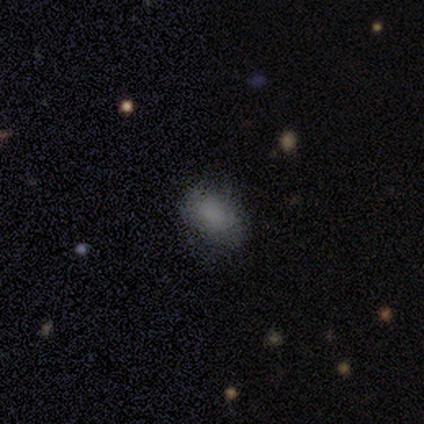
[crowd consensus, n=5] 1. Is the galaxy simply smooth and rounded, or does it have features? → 80% smooth, 20% star or artifact, 0% featured or disk.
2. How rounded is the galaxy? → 75% in between, 25% round, 0% cigar-shaped.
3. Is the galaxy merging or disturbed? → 75% none, 25% major disturbance, 0% minor disturbance, 0% merger.